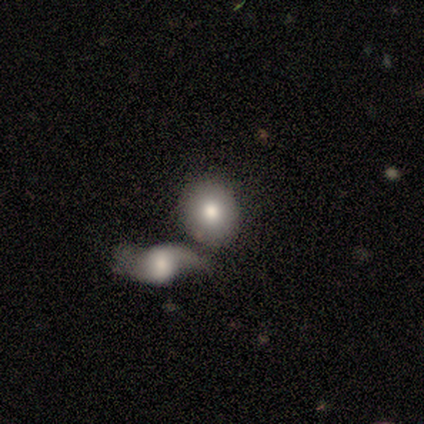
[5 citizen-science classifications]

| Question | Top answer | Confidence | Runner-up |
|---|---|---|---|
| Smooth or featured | smooth | 80% | featured or disk (20%) |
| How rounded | round | 50% | tied: in between (50%) |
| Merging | none | 60% | merger (40%) |